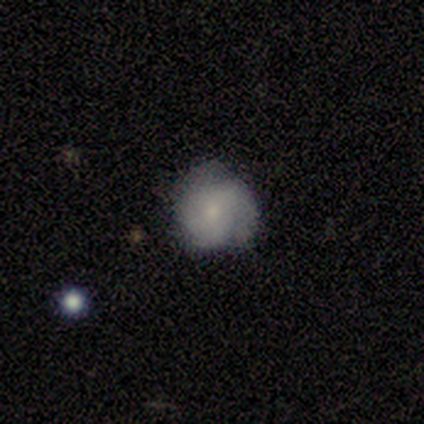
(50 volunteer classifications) featured or disk 64%, smooth 32%, star or artifact 4%. Down the decision tree: edge-on disk — no (100%); bar — no (78%); spiral arms — yes (100%); spiral arm count — 3 (38%); spiral winding — tight (59%); bulge size — small (72%); merging — none (75%).